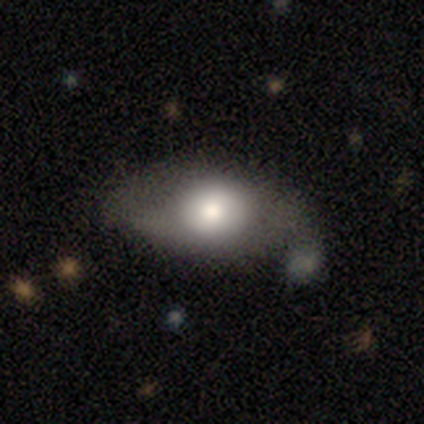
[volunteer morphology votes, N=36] Q: Smooth or featured?
A: smooth (53%); runner-up: featured or disk (33%)
Q: How rounded?
A: in between (84%); runner-up: round (16%)
Q: Merging?
A: none (52%); runner-up: minor disturbance (19%)